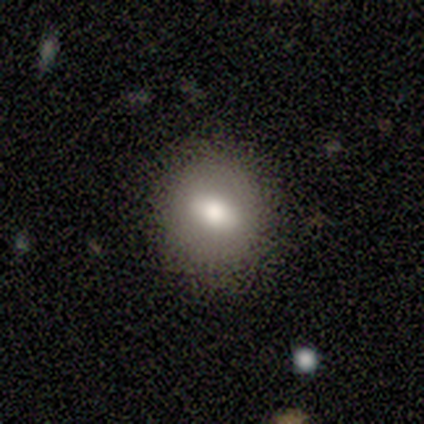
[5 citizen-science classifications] smooth_or_featured: smooth (p=0.40) [tied with: featured or disk p=0.40]
how_rounded: round (p=1.00)
merging: none (p=0.75) [alt: major disturbance p=0.25]